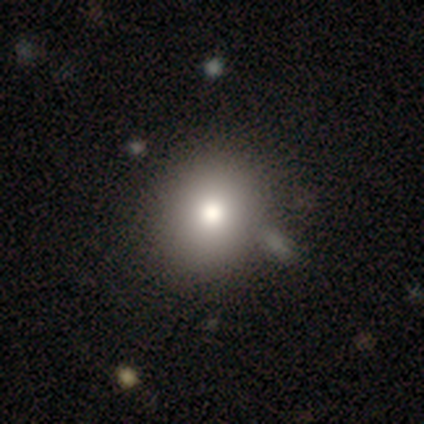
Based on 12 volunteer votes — Volunteers were most divided on "smooth or featured": smooth: 75%, star or artifact: 25%, featured or disk: 0%. More confident: how rounded — round (100%); merging — none (78%).